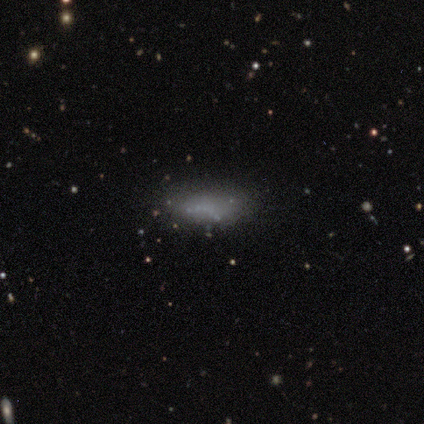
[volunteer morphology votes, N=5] Q: Smooth or featured?
A: smooth (60%); runner-up: featured or disk (40%)
Q: How rounded?
A: in between (67%); runner-up: cigar-shaped (33%)
Q: Merging?
A: none (40%); tied with: minor disturbance (40%)